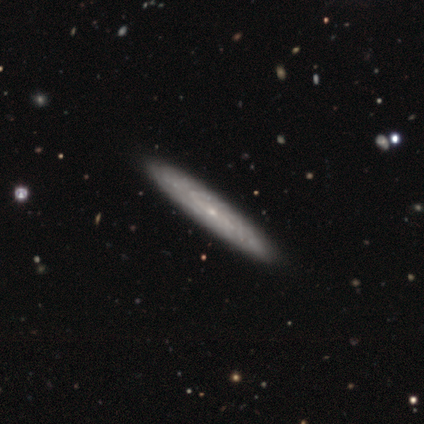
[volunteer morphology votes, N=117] featured or disk 79%, smooth 20%, star or artifact 1%. Down the decision tree: edge-on disk — no (51%); bar — no (70%); spiral arms — yes (79%); spiral arm count — can't tell (81%); spiral winding — tight (70%); bulge size — small (87%); merging — none (61%).